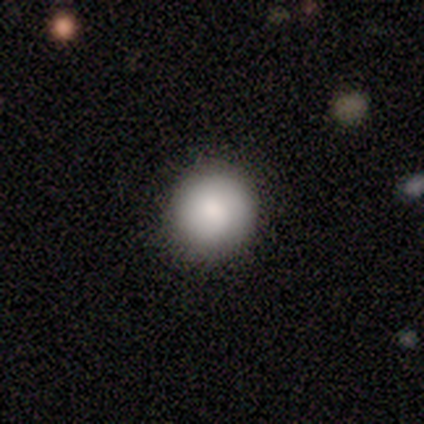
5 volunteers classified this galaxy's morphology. Q: Smooth or featured?
A: smooth (100%)
Q: How rounded?
A: round (80%); runner-up: in between (20%)
Q: Merging?
A: none (80%); runner-up: minor disturbance (20%)